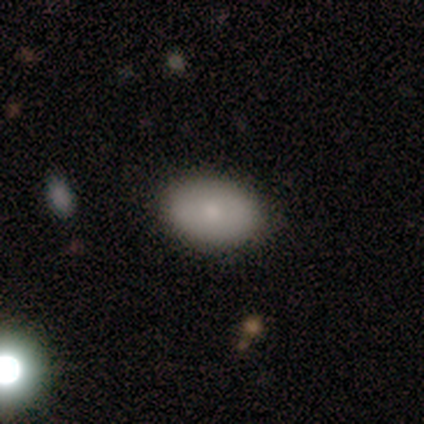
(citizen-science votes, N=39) This is likely a smooth galaxy (79%). How rounded: clearly in between (94%). Merging: clearly none (80%).